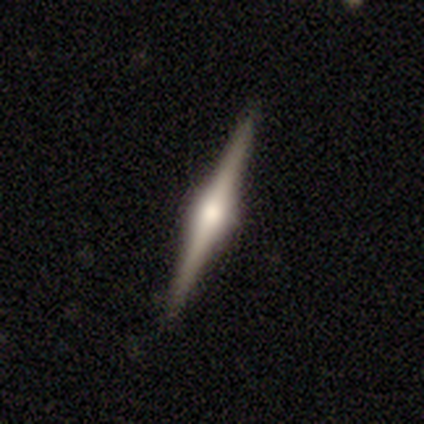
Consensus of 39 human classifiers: smooth_or_featured: featured or disk (p=0.87) [alt: smooth p=0.13]
disk_edge_on: yes (p=0.97) [alt: no p=0.03]
edge_on_bulge: rounded (p=0.97) [alt: boxy p=0.03]
merging: none (p=0.56) [alt: merger p=0.05]